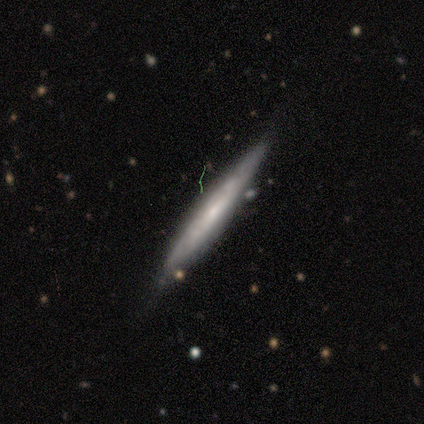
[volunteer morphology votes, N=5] smooth-or-featured: featured or disk: 80% | star or artifact: 20% | smooth: 0%
  disk-edge-on: yes: 75% | no: 25%
    edge-on-bulge: none: 67% | rounded: 33% | boxy: 0%
  merging: none: 100% | minor disturbance: 0% | major disturbance: 0% | merger: 0%